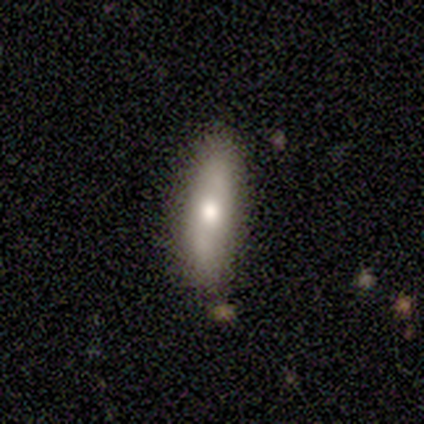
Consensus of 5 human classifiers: smooth 60%, featured or disk 40%, star or artifact 0%. Down the decision tree: how rounded — cigar-shaped (67%); merging — none (100%).